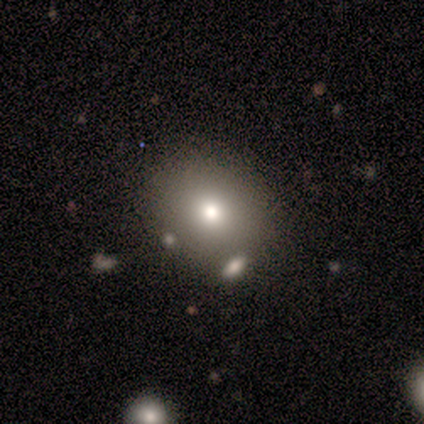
smooth 71%, star or artifact 29%, featured or disk 0%. Down the decision tree: how rounded — in between (80%); merging — none (80%).